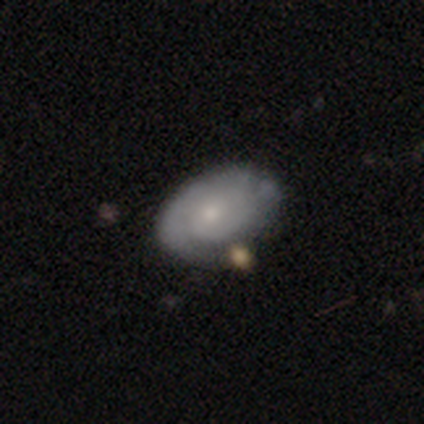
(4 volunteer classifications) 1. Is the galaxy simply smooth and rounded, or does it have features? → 75% featured or disk, 25% smooth, 0% star or artifact.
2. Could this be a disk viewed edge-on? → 100% no, 0% yes.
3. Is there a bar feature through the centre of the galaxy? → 67% no, 33% weak, 0% strong.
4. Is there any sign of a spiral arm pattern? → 100% yes, 0% no.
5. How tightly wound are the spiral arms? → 67% tight, 33% medium, 0% loose.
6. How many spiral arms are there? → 67% can't tell, 33% 3, 0% 1, 0% 2, 0% 4, 0% more than 4.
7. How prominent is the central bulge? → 67% small, 33% moderate, 0% dominant, 0% large, 0% none.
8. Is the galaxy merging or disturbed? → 50% minor disturbance, 25% none, 25% merger, 0% major disturbance.